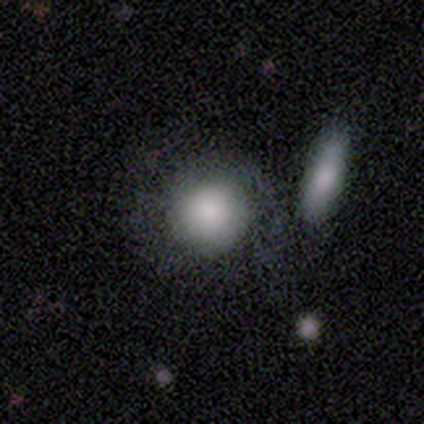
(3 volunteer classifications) smooth-or-featured: smooth: 100% | featured or disk: 0% | star or artifact: 0%
  how-rounded: round: 67% | in between: 33% | cigar-shaped: 0%
  merging: minor disturbance: 67% | none: 33% | major disturbance: 0% | merger: 0%